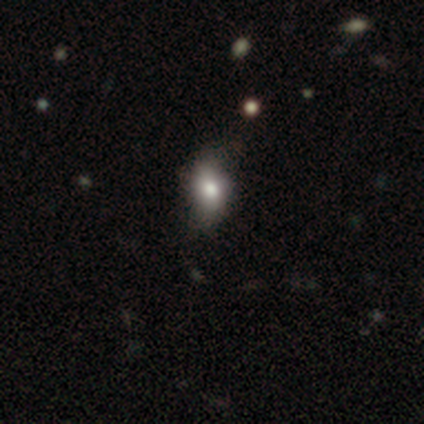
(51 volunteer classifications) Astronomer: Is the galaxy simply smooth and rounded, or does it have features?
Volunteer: smooth — 65%.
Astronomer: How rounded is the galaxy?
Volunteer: in between — 79%.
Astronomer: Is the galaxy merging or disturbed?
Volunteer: none — 61%.